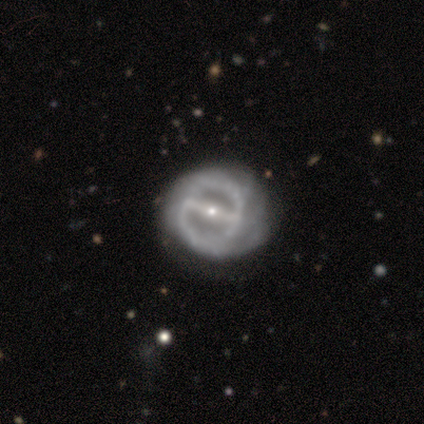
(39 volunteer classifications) This is clearly a featured or disk galaxy (92%). It is clearly not viewed edge-on (94%). Bar: clearly strong (94%). Spiral arm pattern: likely yes (62%). Spiral arm count: likely 2 (67%). Spiral winding: likely tight (67%). Central bulge: possibly small (59%). Merging: possibly none (55%).